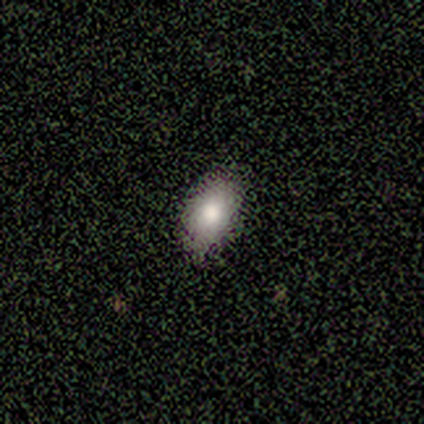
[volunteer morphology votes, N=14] Smooth or featured?
  - smooth: 93% *
  - star or artifact: 7%
  - featured or disk: 0%
How rounded?
  - in between: 92% *
  - round: 8%
  - cigar-shaped: 0%
Merging?
  - none: 85% *
  - minor disturbance: 15%
  - major disturbance: 0%
  - merger: 0%